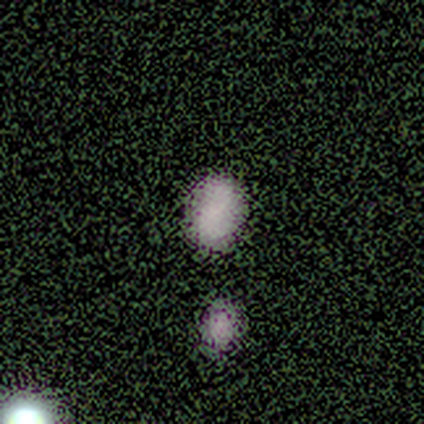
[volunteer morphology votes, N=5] This is likely a star or artifact rather than a galaxy (60%).